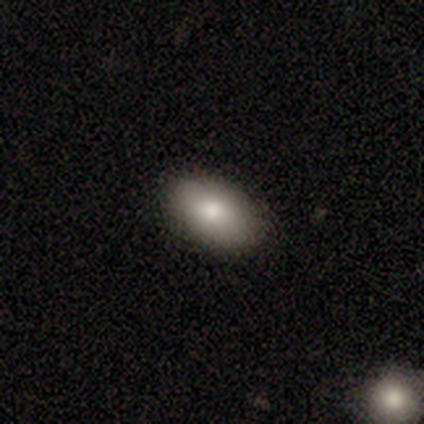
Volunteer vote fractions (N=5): Smooth or featured? 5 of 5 (100%) said smooth. How rounded? 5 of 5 (100%) said in between. Merging? 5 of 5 (100%) said none.